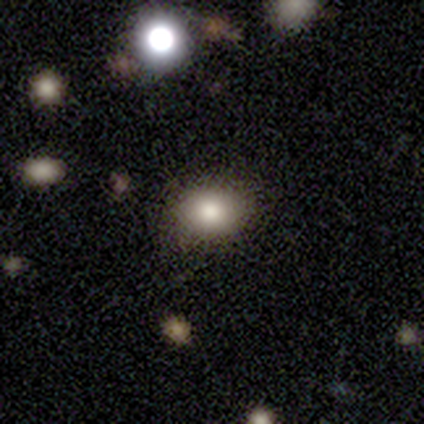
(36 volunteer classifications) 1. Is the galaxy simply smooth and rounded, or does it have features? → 81% smooth, 11% star or artifact, 8% featured or disk.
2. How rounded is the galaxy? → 55% in between, 45% round, 0% cigar-shaped.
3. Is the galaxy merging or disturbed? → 91% none, 6% merger, 3% minor disturbance, 0% major disturbance.